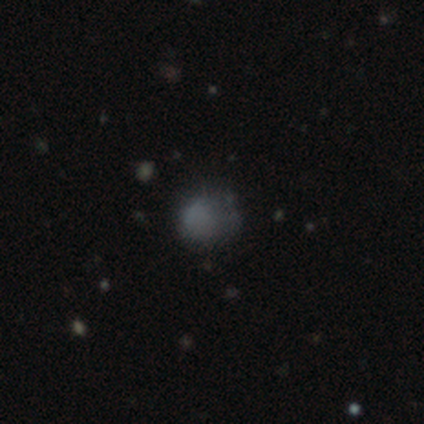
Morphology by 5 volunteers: This is clearly a smooth galaxy (80%). How rounded: likely round (75%). Merging: possibly none (50%).